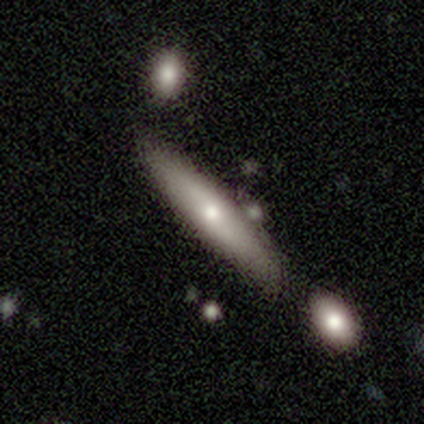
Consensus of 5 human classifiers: smooth_or_featured: smooth (p=0.80) [alt: featured or disk p=0.20]
how_rounded: cigar-shaped (p=0.75) [alt: in between p=0.25]
merging: none (p=1.00)